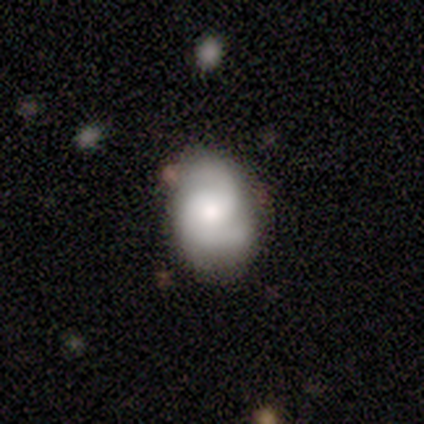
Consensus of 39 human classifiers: Smooth or featured: featured or disk — 62% (smooth — 28%)
Edge-on disk: no — 100%
Bar: no — 71% (weak — 29%)
Spiral arms: yes — 92% (no — 8%)
Spiral winding: medium — 50% (tight — 36%)
Spiral arm count: 2 — 64% (3 — 18%)
Bulge size: small — 42% (moderate — 38%)
Merging: none — 74% (minor disturbance — 20%)